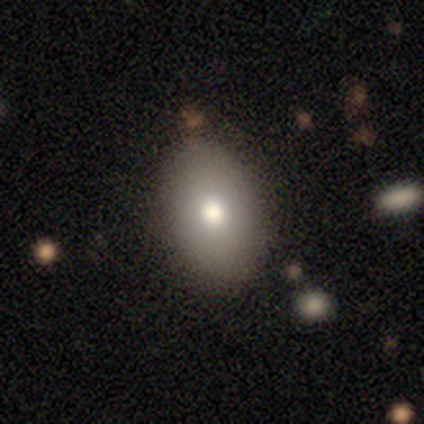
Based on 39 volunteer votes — Q: Smooth or featured?
A: smooth (77%); runner-up: featured or disk (21%)
Q: How rounded?
A: in between (97%); runner-up: round (3%)
Q: Merging?
A: none (84%); runner-up: minor disturbance (11%)